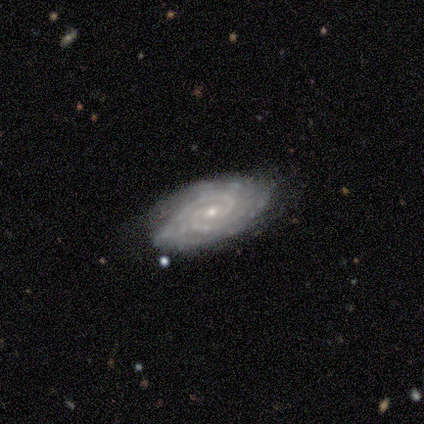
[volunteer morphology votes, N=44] Smooth or featured: featured or disk — 91% (smooth — 7%)
Edge-on disk: no — 95% (yes — 5%)
Bar: weak — 50% (no — 39%)
Spiral arms: yes — 97% (no — 3%)
Spiral winding: tight — 76% (medium — 24%)
Spiral arm count: 2 — 54% (3 — 22%)
Bulge size: small — 89% (moderate — 8%)
Merging: none — 72% (minor disturbance — 23%)